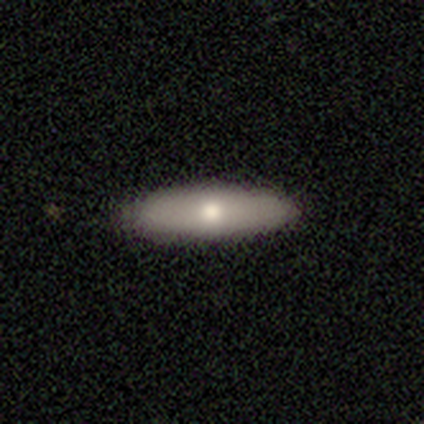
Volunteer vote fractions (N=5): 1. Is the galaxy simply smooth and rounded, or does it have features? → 60% smooth, 40% featured or disk, 0% star or artifact.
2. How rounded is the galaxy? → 67% cigar-shaped, 33% in between, 0% round.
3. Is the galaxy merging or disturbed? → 80% none, 20% minor disturbance, 0% major disturbance, 0% merger.